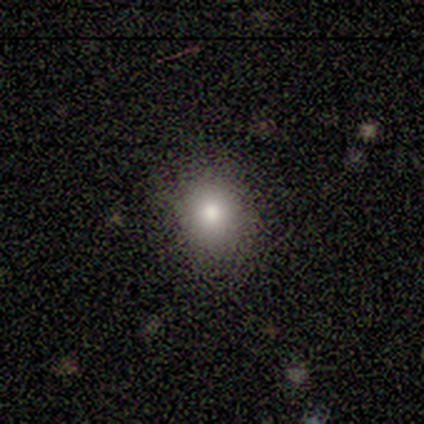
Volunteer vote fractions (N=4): A smooth galaxy with no disk features (75%) that is in between round and cigar-shaped (67%).

Vote fractions:
- Smooth or featured? smooth: 75% / featured or disk: 25% / star or artifact: 0%
- How rounded? in between: 67% / round: 33% / cigar-shaped: 0%
- Merging? none: 100% / minor disturbance: 0% / major disturbance: 0% / merger: 0%